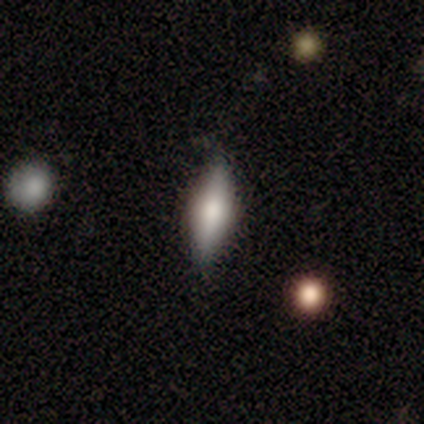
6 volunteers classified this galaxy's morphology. Smooth or featured: smooth — 67% (featured or disk — 33%)
How rounded: cigar-shaped — 75% (in between — 25%)
Merging: none — 67% (minor disturbance — 33%)